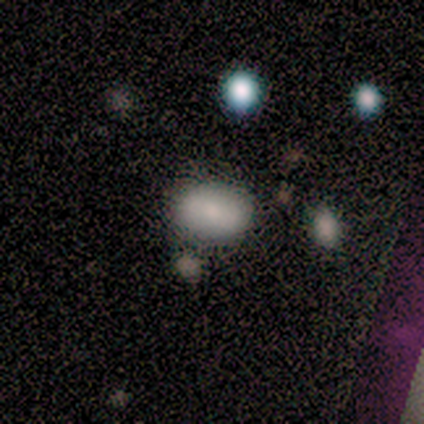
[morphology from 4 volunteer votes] smooth 75%, featured or disk 25%, star or artifact 0%. Down the decision tree: how rounded — in between (100%); merging — none (100%).